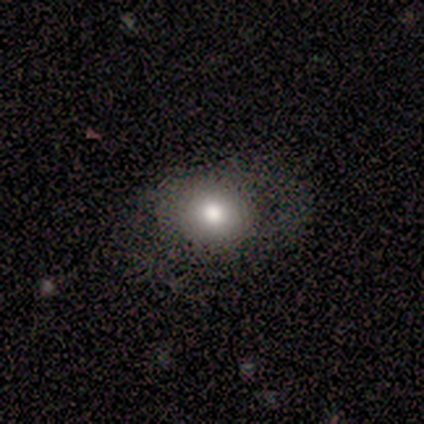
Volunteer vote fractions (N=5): This appears to be a smooth galaxy with no disk features (100%) that is round (80%). Merging: none (80%).